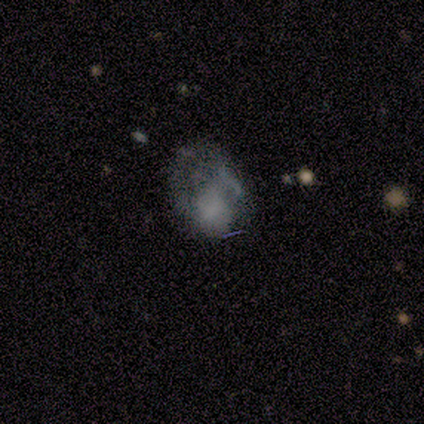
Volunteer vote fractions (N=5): Smooth or featured? 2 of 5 (40%, tied with featured or disk) said smooth. How rounded? 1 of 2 (50%, tied with in between) said round. Merging? 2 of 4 (50%) said none.